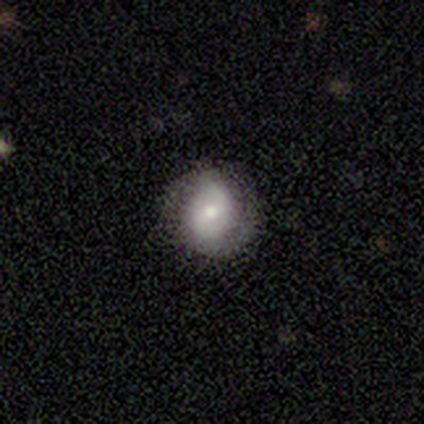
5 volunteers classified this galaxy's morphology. Volunteers were most divided on "smooth or featured" (2-way tie): smooth: 40%, star or artifact: 40%, featured or disk: 20%; "how rounded" (2-way tie): round: 50%, in between: 50%, cigar-shaped: 0%. More confident: merging — none (67%).